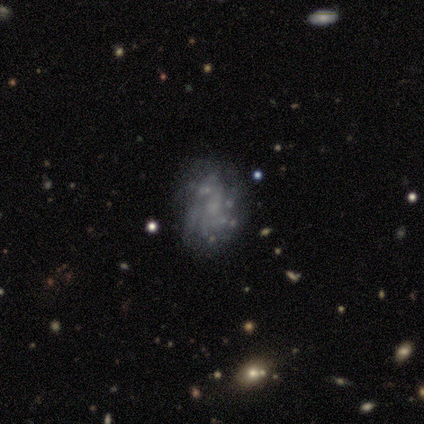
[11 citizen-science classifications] smooth-or-featured: featured or disk: 91% | smooth: 9% | star or artifact: 0%
  disk-edge-on: no: 100% | yes: 0%
    bar: no: 70% | weak: 30% | strong: 0%
    has-spiral-arms: yes: 70% | no: 30%
      spiral-winding: tight: 57% | medium: 29% | loose: 14%
      spiral-arm-count: can't tell: 43% | more than 4: 29% | 2: 14% | 4: 14% | 1: 0% | 3: 0%
    bulge-size: small: 60% | none: 30% | large: 10% | dominant: 0% | moderate: 0%
  merging: none: 55% | minor disturbance: 36% | major disturbance: 9% | merger: 0%